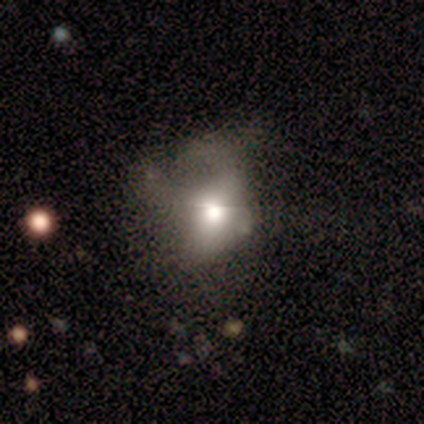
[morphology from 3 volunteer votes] Overall: featured or disk (67%; smooth 33%). Edge-on disk: no (100%). Bar: weak (50%, tied with no). Spiral arms: no (100%). Bulge size: large (50%, tied with moderate). Merging: major disturbance (67%; none 33%).